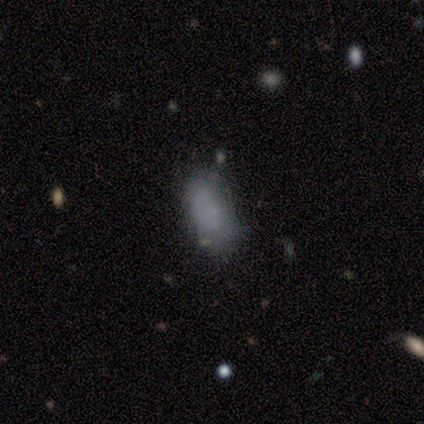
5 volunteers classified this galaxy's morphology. Smooth or featured? 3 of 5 (60%) said smooth. How rounded? 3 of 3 (100%) said in between. Merging? 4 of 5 (80%) said none.